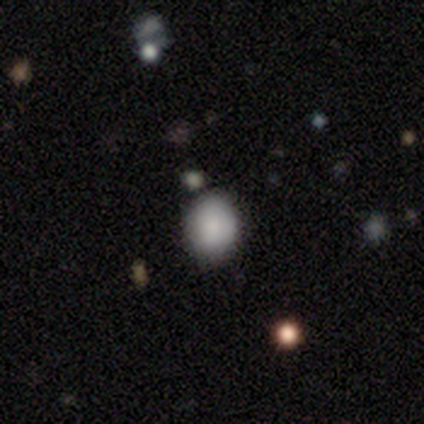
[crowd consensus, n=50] This appears to be a smooth galaxy with no disk features (92%) that is round (52%). Merging: none (79%).